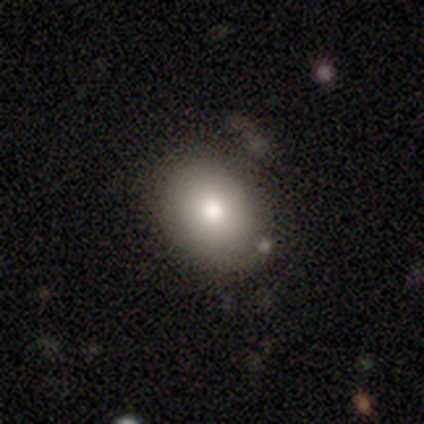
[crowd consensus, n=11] Smooth or featured?
  - smooth: 91% *
  - featured or disk: 9%
  - star or artifact: 0%
How rounded?
  - in between: 60% *
  - round: 40%
  - cigar-shaped: 0%
Merging?
  - none: 73% *
  - minor disturbance: 18%
  - major disturbance: 9%
  - merger: 0%